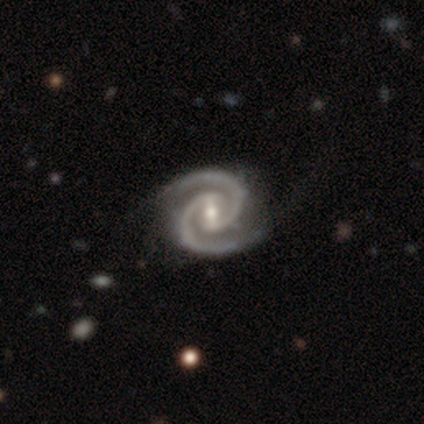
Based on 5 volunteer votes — smooth-or-featured: featured or disk: 100% | smooth: 0% | star or artifact: 0%
  disk-edge-on: no: 100% | yes: 0%
    bar: strong: 60% | weak: 40% | no: 0%
    has-spiral-arms: yes: 100% | no: 0%
      spiral-winding: tight: 80% | medium: 20% | loose: 0%
      spiral-arm-count: 2: 100% | 1: 0% | 3: 0% | 4: 0% | more than 4: 0% | can't tell: 0%
    bulge-size: moderate: 40% (tied) | small: 40% (tied) | none: 20% | dominant: 0% | large: 0%
  merging: none: 60% | minor disturbance: 40% | major disturbance: 0% | merger: 0%